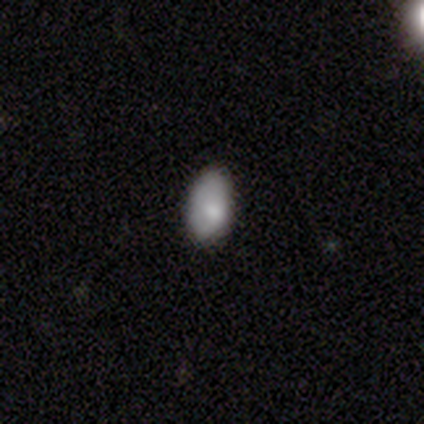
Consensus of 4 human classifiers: Overall: smooth (100%). How rounded: in between (100%). Merging: none (50%, tied with minor disturbance).